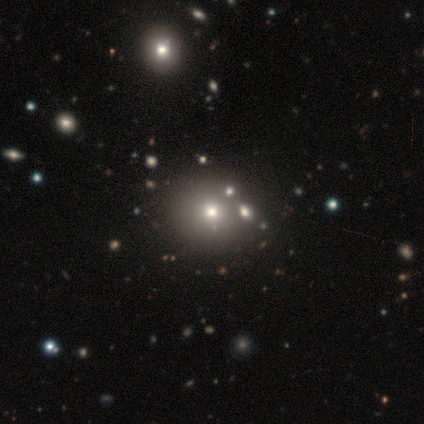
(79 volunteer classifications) Smooth or featured? 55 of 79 (70%) said smooth. How rounded? 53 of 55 (96%) said round. Merging? 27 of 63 (43%) said none.